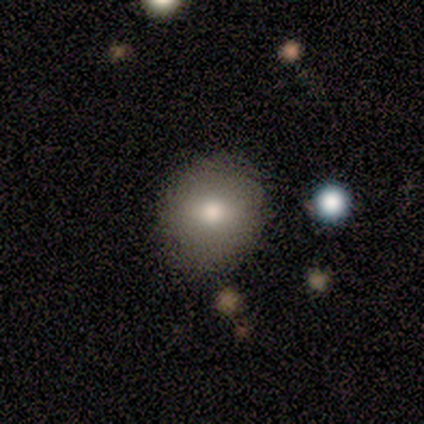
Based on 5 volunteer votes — Overall: smooth (60%; featured or disk 40%). How rounded: round (100%). Merging: none (100%).